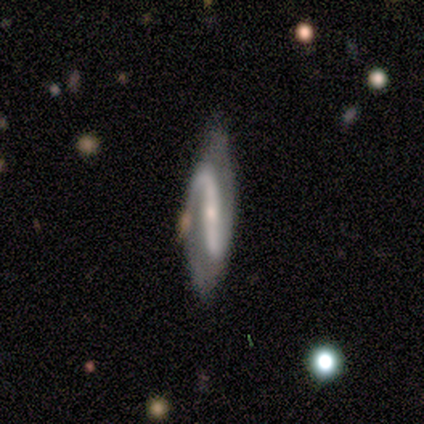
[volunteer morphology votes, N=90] smooth_or_featured: featured or disk (p=0.89) [alt: smooth p=0.09]
disk_edge_on: no (p=0.84) [alt: yes p=0.16]
bar: strong (p=0.73) [alt: no p=0.15]
has_spiral_arms: yes (p=0.88) [alt: no p=0.12]
spiral_winding: loose (p=0.71) [alt: medium p=0.17]
spiral_arm_count: 2 (p=0.98) [alt: 1 p=0.02]
bulge_size: small (p=0.64) [alt: moderate p=0.25]
merging: none (p=0.67) [alt: minor disturbance p=0.23]